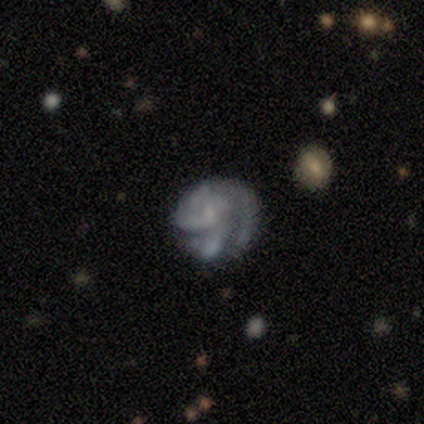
Morphology: type=featured or disk (60%); edge-on=no (100%); bar=no (100%); spiral arms=yes (100%); winding=tight (100%); arm count=can't tell (67%); bulge=large (33%, tied with small and none); merging=none (40%, tied with major disturbance).